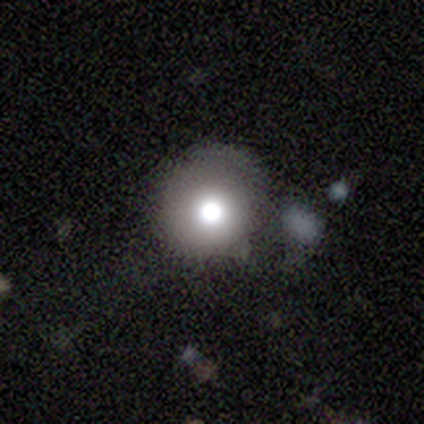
A smooth galaxy with no disk features (82%) that is round (97%).

Vote fractions:
- Smooth or featured? smooth: 82% / star or artifact: 13% / featured or disk: 5%
- How rounded? round: 97% / in between: 3% / cigar-shaped: 0%
- Merging? none: 73% / minor disturbance: 18% / major disturbance: 6% / merger: 3%